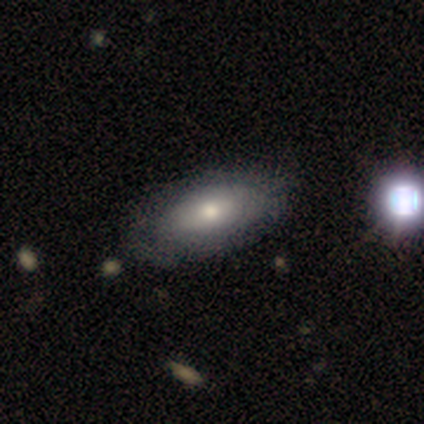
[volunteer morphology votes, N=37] This is likely a smooth galaxy (76%). How rounded: clearly in between (96%). Merging: possibly none (57%).